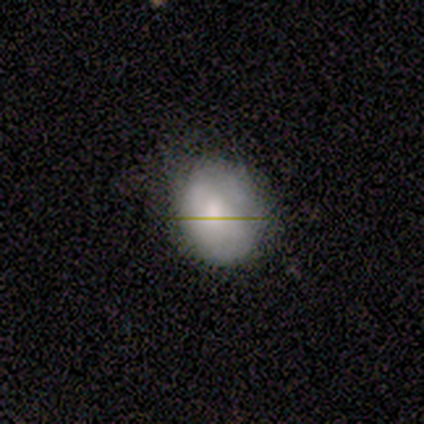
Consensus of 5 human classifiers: Overall: smooth (80%). How rounded: round (50%, tied with in between). Merging: none (60%; minor disturbance 40%).